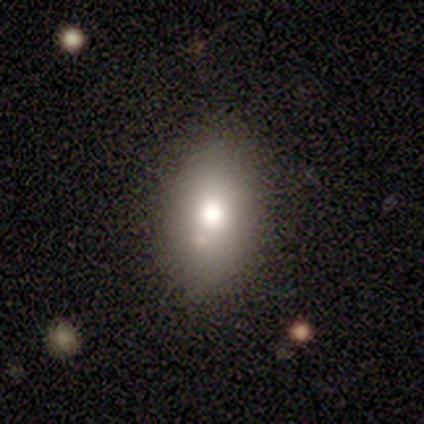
smooth 80%, featured or disk 20%, star or artifact 0%. Down the decision tree: how rounded — in between (75%); merging — none (80%).